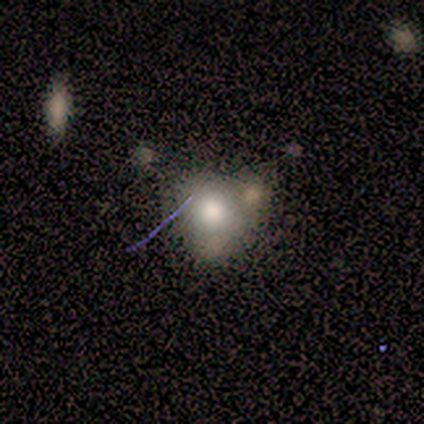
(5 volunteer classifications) A smooth galaxy with no disk features (60%) that is in between round and cigar-shaped (100%).

Vote fractions:
- Smooth or featured? smooth: 60% / featured or disk: 20% / star or artifact: 20%
- How rounded? in between: 100% / round: 0% / cigar-shaped: 0%
- Merging? minor disturbance: 50% / none: 25% / merger: 25% / major disturbance: 0%